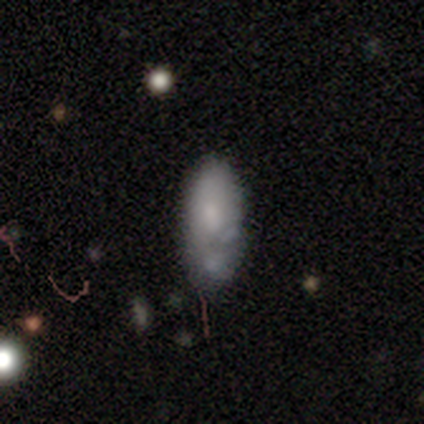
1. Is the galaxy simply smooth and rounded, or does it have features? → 50% smooth, 42% featured or disk, 8% star or artifact.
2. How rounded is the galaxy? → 79% in between, 21% cigar-shaped, 0% round.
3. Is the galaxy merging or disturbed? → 40% none, 31% merger, 26% minor disturbance, 3% major disturbance.